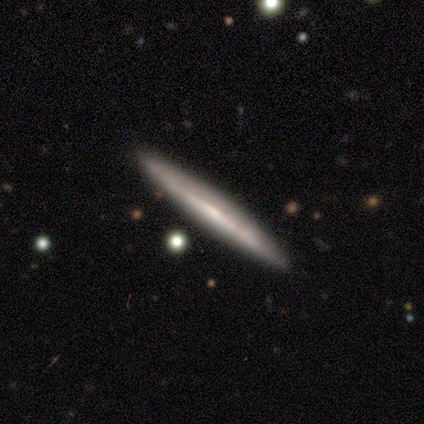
This is clearly a featured or disk galaxy (82%). It is clearly viewed edge-on (90%). Edge-on bulge: likely none (64%). Merging: clearly none (82%).